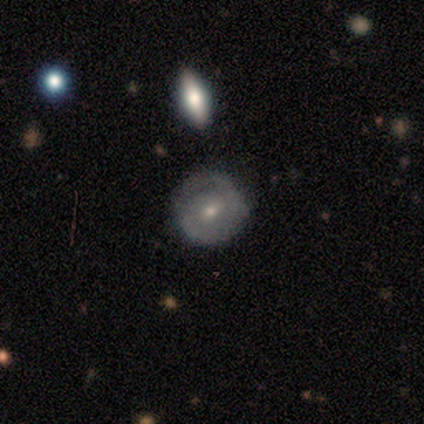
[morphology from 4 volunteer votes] smooth_or_featured: smooth (p=0.50) [tied with: featured or disk p=0.50]
how_rounded: round (p=0.50) [tied with: in between p=0.50]
merging: none (p=0.75) [alt: major disturbance p=0.25]